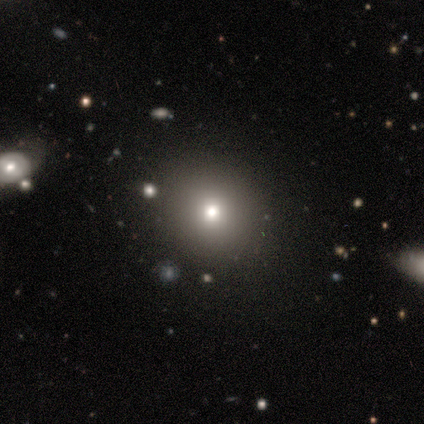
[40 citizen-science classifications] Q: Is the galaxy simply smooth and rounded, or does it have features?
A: smooth — 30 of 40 (75%).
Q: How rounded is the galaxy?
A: round — 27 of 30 (90%).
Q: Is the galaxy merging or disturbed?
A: none — 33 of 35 (94%).